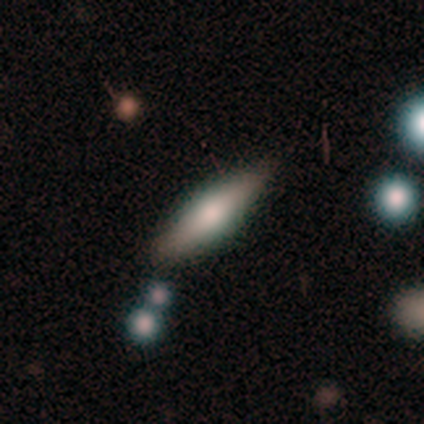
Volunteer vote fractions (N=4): Morphology: type=featured or disk (75%); edge-on=yes (100%); edge-on bulge=rounded (100%); merging=none (75%).